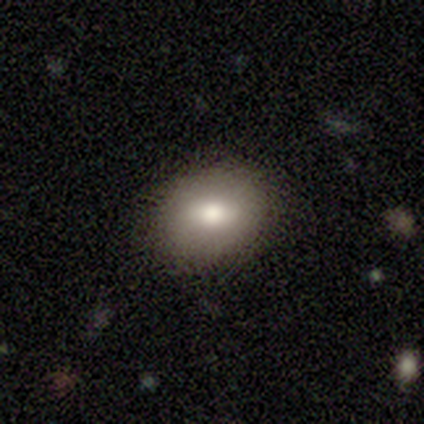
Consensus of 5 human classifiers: smooth-or-featured: smooth: 60% | featured or disk: 20% | star or artifact: 20%
  how-rounded: in between: 100% | round: 0% | cigar-shaped: 0%
  merging: none: 75% | major disturbance: 25% | minor disturbance: 0% | merger: 0%